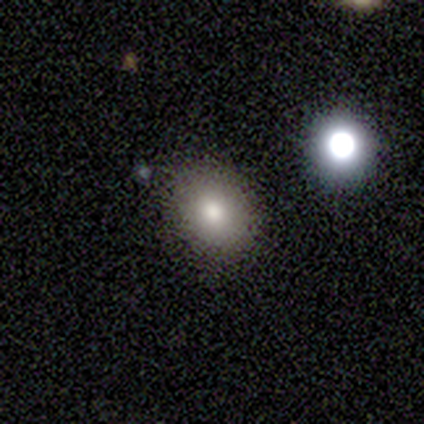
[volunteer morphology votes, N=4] A smooth galaxy with no disk features (100%) that is in between round and cigar-shaped (75%). Merging: none (50%).